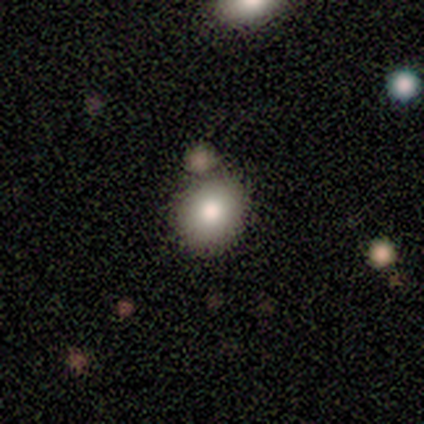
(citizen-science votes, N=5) smooth_or_featured: smooth (p=1.00)
how_rounded: round (p=0.80) [alt: in between p=0.20]
merging: none (p=0.80) [alt: merger p=0.20]